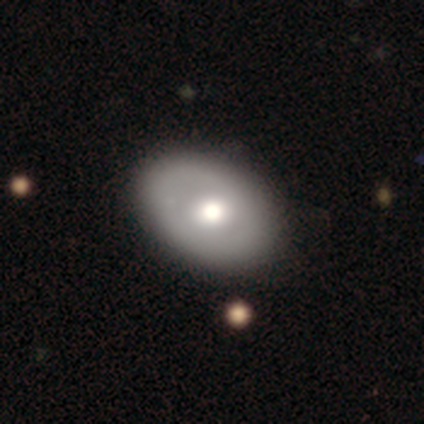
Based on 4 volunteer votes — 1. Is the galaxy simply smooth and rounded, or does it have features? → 50% featured or disk, 25% smooth, 25% star or artifact.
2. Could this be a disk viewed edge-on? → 100% no, 0% yes.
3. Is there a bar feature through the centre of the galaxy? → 100% no, 0% strong, 0% weak.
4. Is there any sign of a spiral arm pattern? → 100% no, 0% yes.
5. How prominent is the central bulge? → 100% moderate, 0% dominant, 0% large, 0% small, 0% none.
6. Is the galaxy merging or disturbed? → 67% none, 33% minor disturbance, 0% major disturbance, 0% merger.